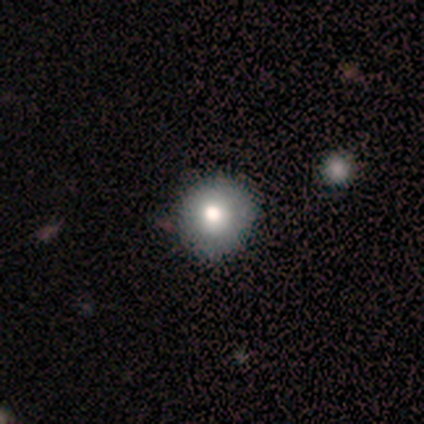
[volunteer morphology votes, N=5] A smooth galaxy with no disk features (80%) that is round (100%). Merging: none (60%).